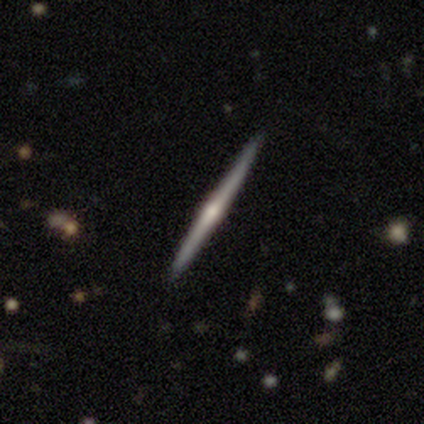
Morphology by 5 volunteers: Overall: featured or disk (60%; smooth 40%). Edge-on disk: yes (100%). Edge-on bulge: none (67%; rounded 33%). Merging: none (100%).